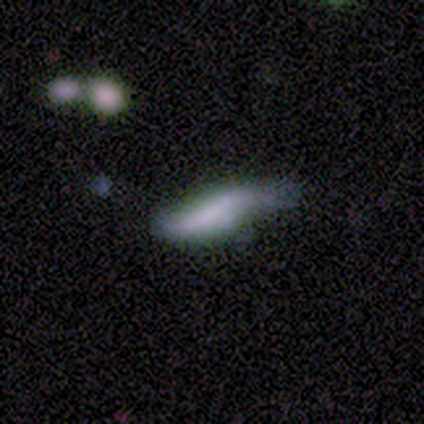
smooth 65%, featured or disk 29%, star or artifact 6%. Down the decision tree: how rounded — cigar-shaped (55%); merging — major disturbance (47%).